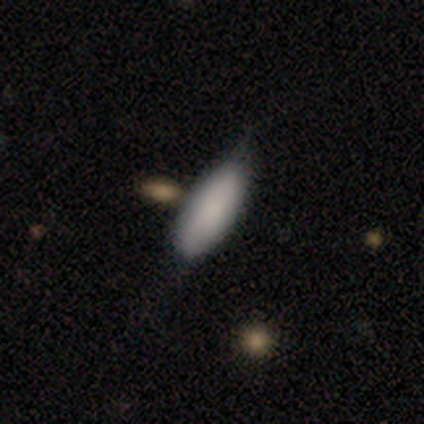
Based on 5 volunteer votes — Smooth or featured? 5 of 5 (100%) said smooth. How rounded? 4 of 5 (80%) said in between. Merging? 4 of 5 (80%) said minor disturbance.